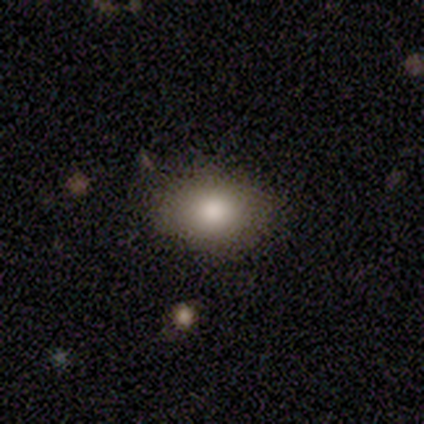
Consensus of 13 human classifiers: Smooth or featured: smooth — 100%
How rounded: in between — 69% (round — 31%)
Merging: none — 92% (minor disturbance — 8%)